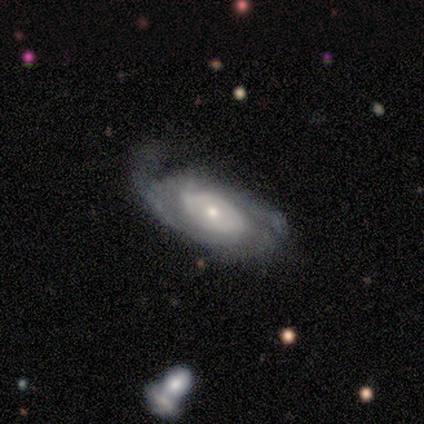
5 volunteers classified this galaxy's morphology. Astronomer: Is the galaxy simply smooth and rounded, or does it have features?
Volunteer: featured or disk — 60% (runner-up: smooth, 40%).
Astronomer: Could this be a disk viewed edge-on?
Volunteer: no — 100%.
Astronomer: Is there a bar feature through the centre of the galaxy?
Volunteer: no — 67%.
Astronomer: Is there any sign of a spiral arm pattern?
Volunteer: yes — 100%.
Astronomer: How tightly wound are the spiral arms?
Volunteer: loose — 67%.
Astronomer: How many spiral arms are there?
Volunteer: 2 — 33%, tied with 3 and can't tell at 33%.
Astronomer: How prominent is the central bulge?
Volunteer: small — 67%.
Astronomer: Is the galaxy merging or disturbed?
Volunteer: none — 40%, tied with minor disturbance at 40%.